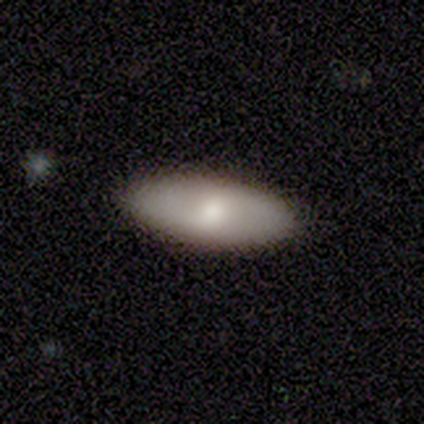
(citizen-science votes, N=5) This is clearly a smooth galaxy (80%). How rounded: clearly in between (100%). Merging: clearly none (100%).